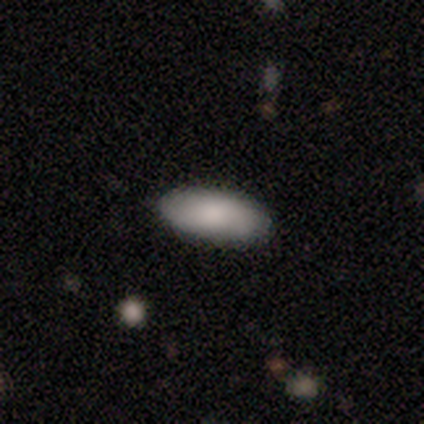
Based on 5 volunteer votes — smooth_or_featured: smooth (p=0.80) [alt: featured or disk p=0.20]
how_rounded: in between (p=1.00)
merging: none (p=0.80) [alt: minor disturbance p=0.20]